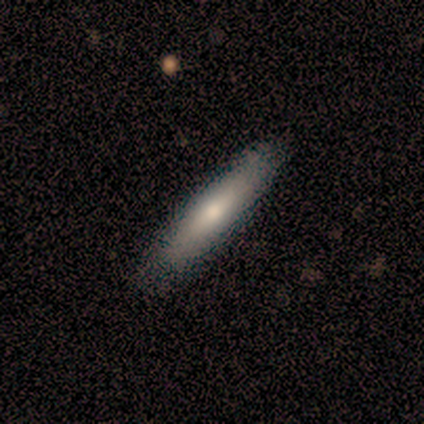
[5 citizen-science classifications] Smooth or featured: smooth — 80% (featured or disk — 20%)
How rounded: cigar-shaped — 100%
Merging: none — 100%